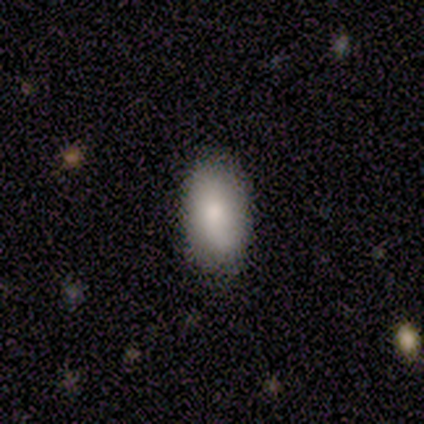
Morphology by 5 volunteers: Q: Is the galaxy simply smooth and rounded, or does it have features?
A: smooth — 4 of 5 (80%).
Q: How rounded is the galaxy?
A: in between — 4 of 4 (100%).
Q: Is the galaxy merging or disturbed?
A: none — 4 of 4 (100%).